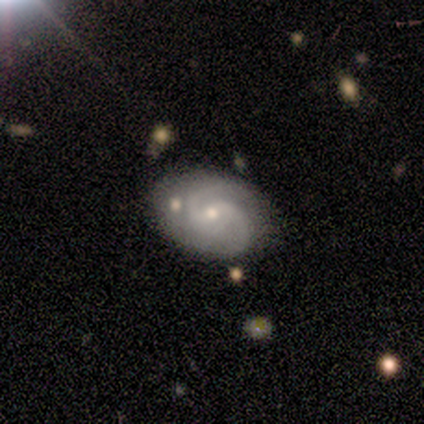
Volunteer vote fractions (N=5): Smooth or featured? 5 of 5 (100%) said featured or disk. Edge-on disk? 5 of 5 (100%) said no. Bar? 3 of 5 (60%) said weak. Spiral arms? 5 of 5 (100%) said yes. Spiral winding? 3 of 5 (60%) said tight. Spiral arm count? 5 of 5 (100%) said 2. Bulge size? 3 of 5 (60%) said moderate. Merging? 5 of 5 (100%) said none.